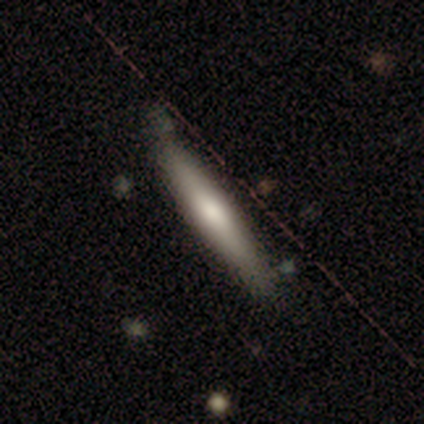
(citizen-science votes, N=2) smooth-or-featured: smooth: 100% | featured or disk: 0% | star or artifact: 0%
  how-rounded: cigar-shaped: 100% | round: 0% | in between: 0%
  merging: none: 100% | minor disturbance: 0% | major disturbance: 0% | merger: 0%